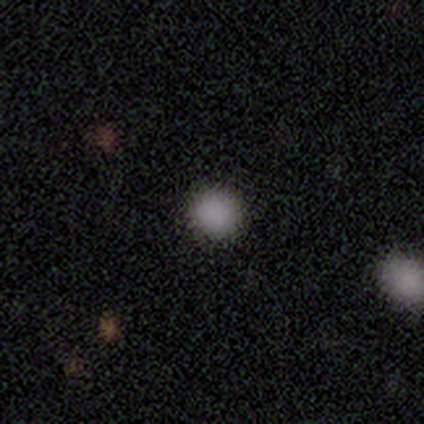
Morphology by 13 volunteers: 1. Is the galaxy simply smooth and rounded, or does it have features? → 69% smooth, 31% star or artifact, 0% featured or disk.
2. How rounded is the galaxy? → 100% round, 0% in between, 0% cigar-shaped.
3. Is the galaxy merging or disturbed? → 100% none, 0% minor disturbance, 0% major disturbance, 0% merger.